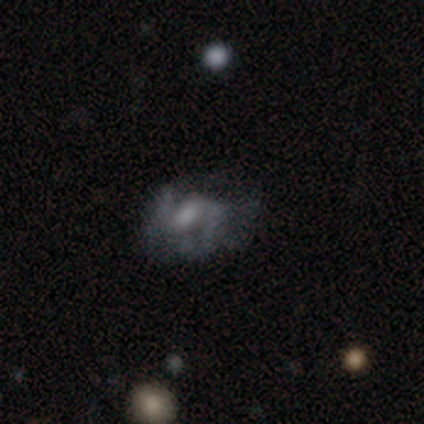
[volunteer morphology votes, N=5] smooth_or_featured: featured or disk (p=0.60) [alt: smooth p=0.40]
disk_edge_on: no (p=0.67) [alt: yes p=0.33]
bar: weak (p=1.00)
has_spiral_arms: yes (p=1.00)
spiral_winding: medium (p=0.50) [tied with: loose p=0.50]
spiral_arm_count: 2 (p=1.00)
bulge_size: moderate (p=1.00)
merging: none (p=0.60) [alt: minor disturbance p=0.20]